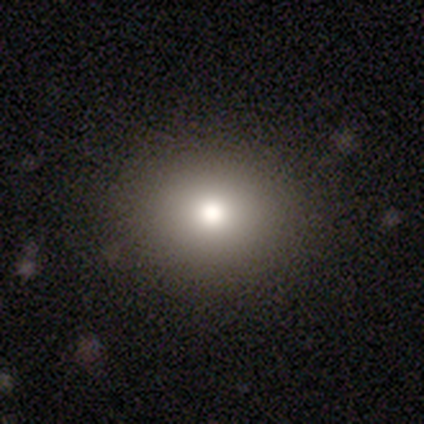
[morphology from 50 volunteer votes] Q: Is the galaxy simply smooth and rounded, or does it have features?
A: smooth — 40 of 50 (80%).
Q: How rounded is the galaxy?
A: round — 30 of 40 (75%).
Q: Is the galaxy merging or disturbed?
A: none — 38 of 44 (86%).